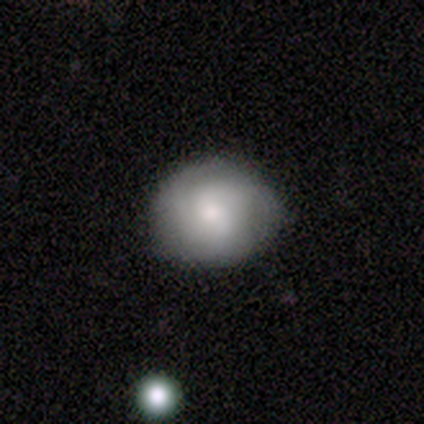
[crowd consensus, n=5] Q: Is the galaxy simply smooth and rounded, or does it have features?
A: featured or disk — 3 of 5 (60%).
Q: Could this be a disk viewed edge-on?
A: no — 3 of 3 (100%).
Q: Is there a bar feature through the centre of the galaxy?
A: no — 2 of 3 (67%).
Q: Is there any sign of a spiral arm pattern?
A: yes — 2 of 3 (67%).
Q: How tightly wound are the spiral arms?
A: medium — 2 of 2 (100%).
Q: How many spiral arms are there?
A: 2 — 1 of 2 (50%, tied with 3).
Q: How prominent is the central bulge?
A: large — 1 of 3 (33%, tied with moderate and small).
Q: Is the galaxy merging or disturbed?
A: none — 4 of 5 (80%).